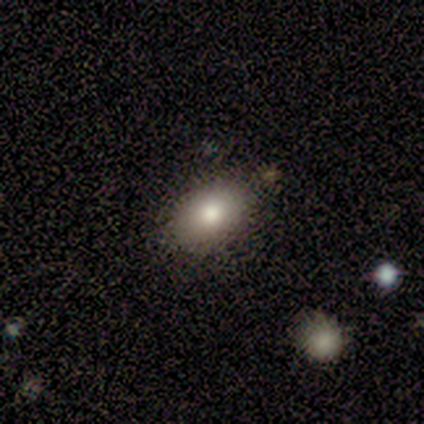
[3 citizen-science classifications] This is likely a smooth galaxy (67%). How rounded: clearly in between (100%). Merging: clearly none (100%).